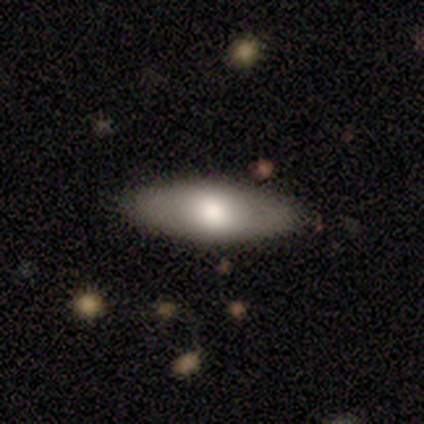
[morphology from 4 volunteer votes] This appears to be a smooth galaxy with no disk features (75%) that is in between round and cigar-shaped (100%). Merging: none (75%).